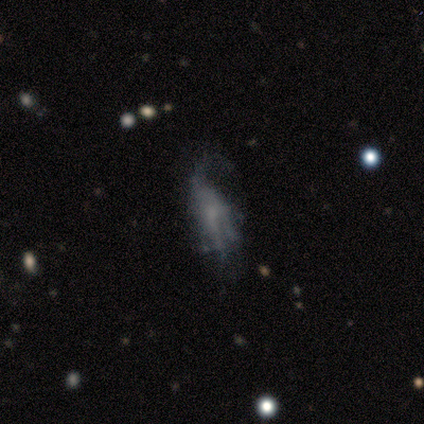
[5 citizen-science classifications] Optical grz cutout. It shows a featured or disk galaxy (60%) with no bar (67%), 1 (50%, tied with 3) loose (100%) spiral arms (67%) and a small central bulge (67%). Merging: major disturbance (100%).